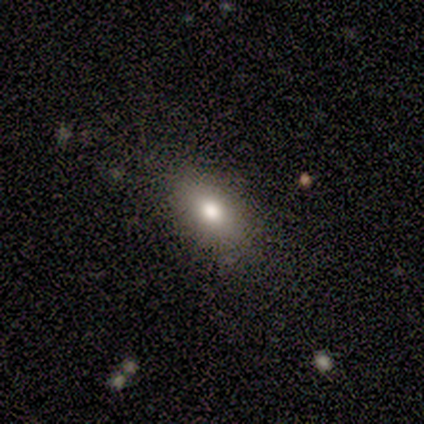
Q: Smooth or featured?
A: smooth (80%); runner-up: featured or disk (20%)
Q: How rounded?
A: in between (75%); runner-up: cigar-shaped (25%)
Q: Merging?
A: none (80%); runner-up: major disturbance (20%)